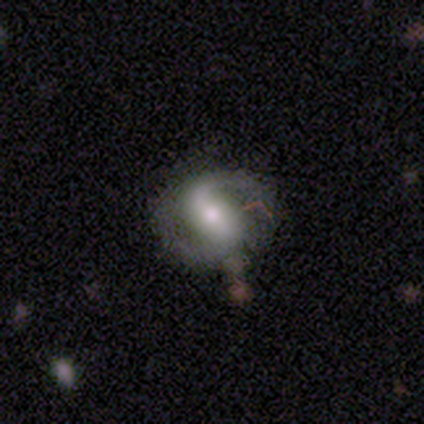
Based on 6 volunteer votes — Volunteers were most divided on "bulge size" (3-way tie): large: 33%, moderate: 33%, small: 33%, dominant: 0%, none: 0%. More confident: smooth or featured — featured or disk (100%); edge-on disk — no (100%); spiral arms — yes (100%); spiral winding — medium (100%); spiral arm count — 2 (100%); merging — none (100%); bar — strong (50%).